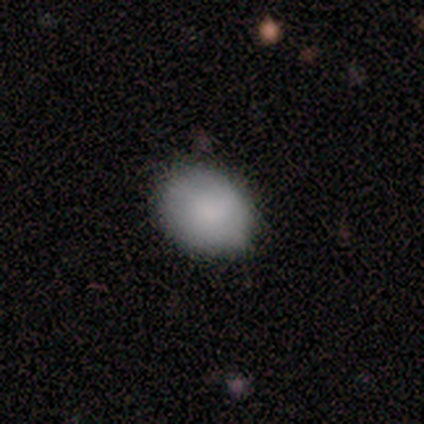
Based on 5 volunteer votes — smooth 100%, featured or disk 0%, star or artifact 0%. Down the decision tree: how rounded — round (80%); merging — none (100%).